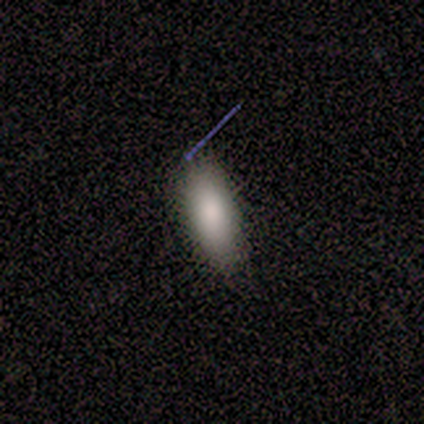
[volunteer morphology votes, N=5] Volunteers were most divided on "smooth or featured": smooth: 80%, star or artifact: 20%, featured or disk: 0%. More confident: how rounded — in between (100%); merging — none (100%).